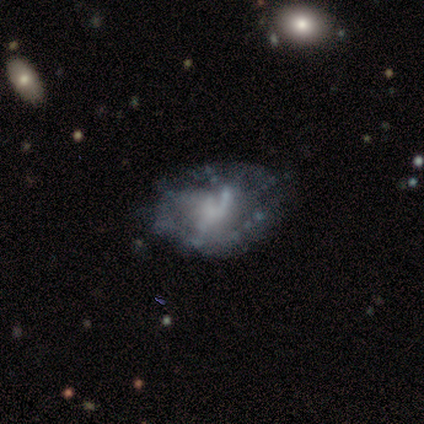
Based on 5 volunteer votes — Smooth or featured? featured or disk (100%)
Edge-on disk? no (100%)
Bar? no (80%)
Spiral arms? yes (60%)
Spiral winding? loose (67%)
Spiral arm count? 1 (33%, tied with 3 and 4)
Bulge size? small (60%)
Merging? minor disturbance (60%)